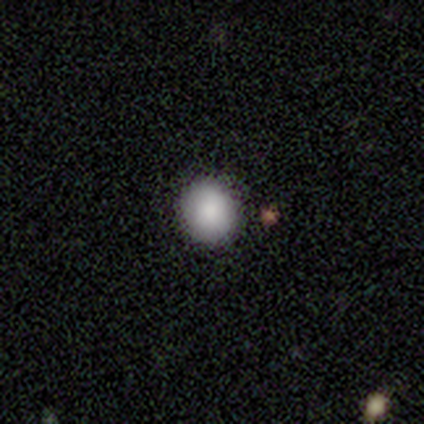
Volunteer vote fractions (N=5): This appears to be a smooth galaxy with no disk features (80%) that is round (100%). Merging: none (100%).